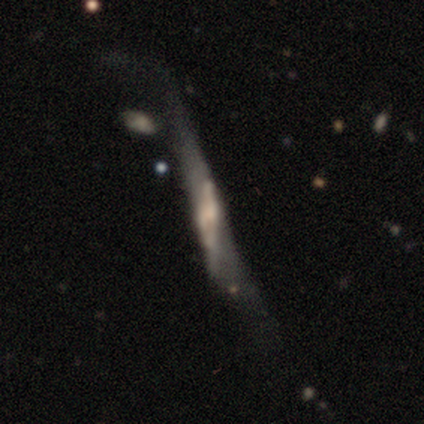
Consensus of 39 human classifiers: Overall: featured or disk (74%). Edge-on disk: yes (62%; no 38%). Edge-on bulge: boxy (33%, tied with none and rounded). Merging: major disturbance (42%; none 28%).